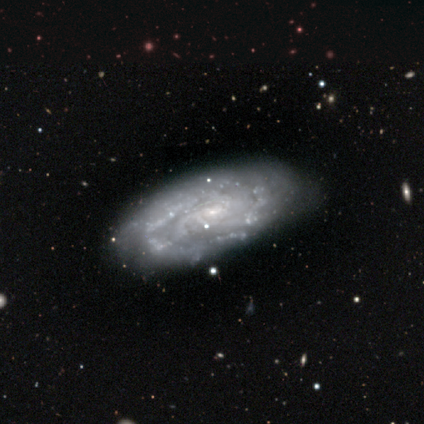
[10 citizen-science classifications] Smooth or featured? 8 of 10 (80%) said featured or disk. Edge-on disk? 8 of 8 (100%) said no. Bar? 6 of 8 (75%) said no. Spiral arms? 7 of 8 (88%) said yes. Spiral winding? 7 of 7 (100%) said tight. Spiral arm count? 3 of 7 (43%) said 3. Bulge size? 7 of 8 (88%) said small. Merging? 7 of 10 (70%) said none.